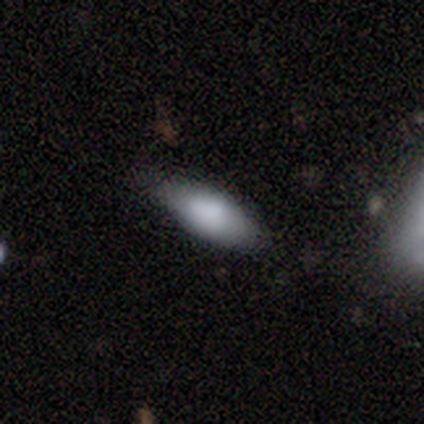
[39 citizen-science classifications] smooth 72%, featured or disk 21%, star or artifact 8%. Down the decision tree: how rounded — in between (82%); merging — none (61%).